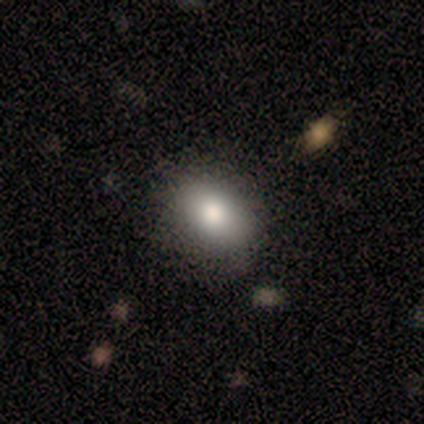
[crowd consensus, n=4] Smooth or featured?
  - smooth: 75% *
  - star or artifact: 25%
  - featured or disk: 0%
How rounded?
  - in between: 67% *
  - round: 33%
  - cigar-shaped: 0%
Merging?
  - none: 100% *
  - minor disturbance: 0%
  - major disturbance: 0%
  - merger: 0%